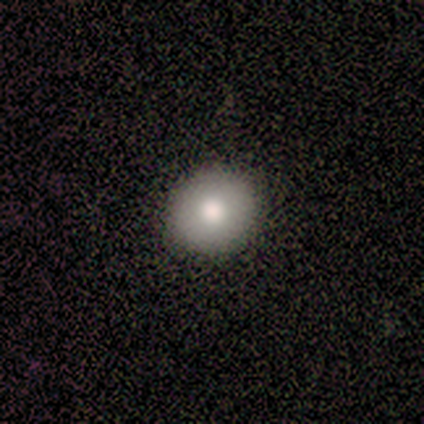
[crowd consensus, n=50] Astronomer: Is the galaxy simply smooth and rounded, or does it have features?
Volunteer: smooth — 80%.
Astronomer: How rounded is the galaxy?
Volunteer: round — 85%.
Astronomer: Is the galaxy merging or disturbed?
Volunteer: none — 96%.